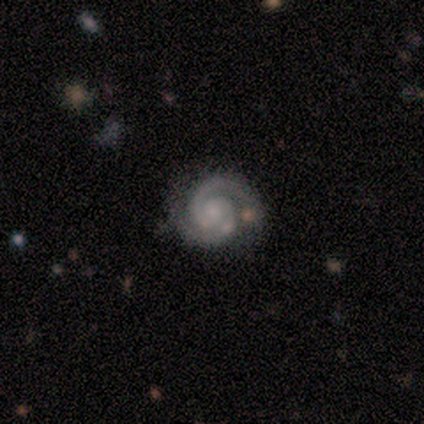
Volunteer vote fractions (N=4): Smooth or featured?
  - featured or disk: 100% *
  - smooth: 0%
  - star or artifact: 0%
Edge-on disk?
  - no: 100% *
  - yes: 0%
Bar?
  - no: 100% *
  - strong: 0%
  - weak: 0%
Spiral arms?
  - yes: 100% *
  - no: 0%
Spiral winding?
  - tight: 50% *
  - medium: 25%
  - loose: 25%
Spiral arm count?
  - 2: 75% *
  - 1: 25%
  - 3: 0%
  - 4: 0%
  - more than 4: 0%
  - can't tell: 0%
Bulge size?
  - small: 50% *
  - moderate: 25%
  - none: 25%
  - dominant: 0%
  - large: 0%
Merging?
  - none: 100% *
  - minor disturbance: 0%
  - major disturbance: 0%
  - merger: 0%